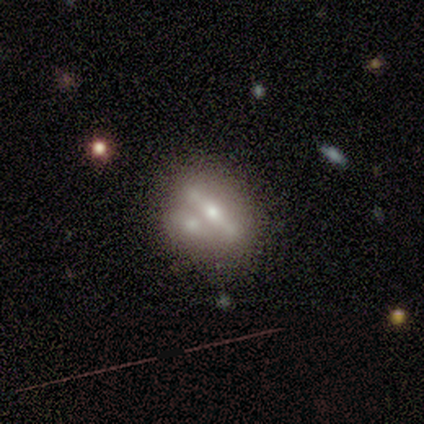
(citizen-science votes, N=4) Overall: smooth (50%, tied with star or artifact). How rounded: in between (50%, tied with cigar-shaped). Merging: merger (100%).